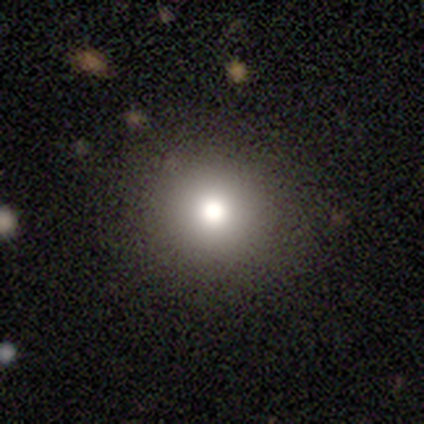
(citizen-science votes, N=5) Smooth or featured? 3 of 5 (60%) said smooth. How rounded? 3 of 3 (100%) said round. Merging? 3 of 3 (100%) said none.